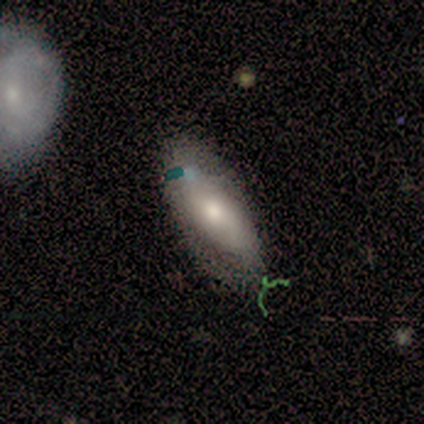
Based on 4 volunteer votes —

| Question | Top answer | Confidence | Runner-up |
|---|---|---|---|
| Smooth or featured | smooth | 75% | featured or disk (25%) |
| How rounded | in between | 100% | — |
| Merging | none | 100% | — |